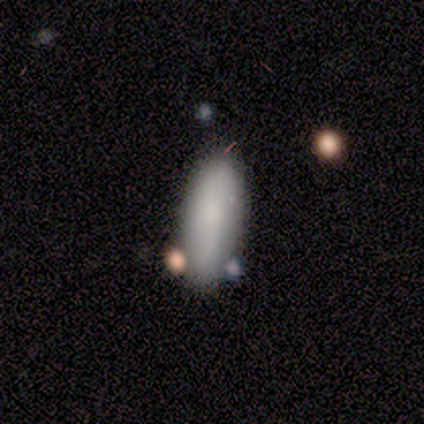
A smooth galaxy with no disk features (80%) that is in between round and cigar-shaped (75%).

Vote fractions:
- Smooth or featured? smooth: 80% / featured or disk: 20% / star or artifact: 0%
- How rounded? in between: 75% / cigar-shaped: 25% / round: 0%
- Merging? none: 80% / major disturbance: 20% / minor disturbance: 0% / merger: 0%